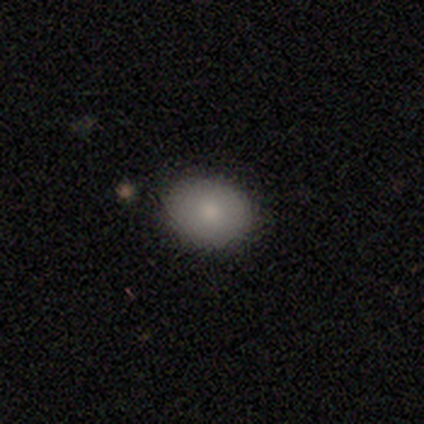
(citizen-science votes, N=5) Q: Smooth or featured?
A: smooth (100%)
Q: How rounded?
A: in between (80%); runner-up: round (20%)
Q: Merging?
A: none (100%)